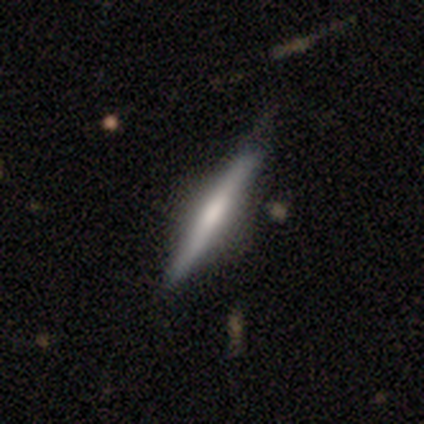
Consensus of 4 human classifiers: smooth-or-featured: featured or disk: 100% | smooth: 0% | star or artifact: 0%
  disk-edge-on: yes: 100% | no: 0%
    edge-on-bulge: rounded: 100% | boxy: 0% | none: 0%
  merging: none: 75% | minor disturbance: 25% | major disturbance: 0% | merger: 0%